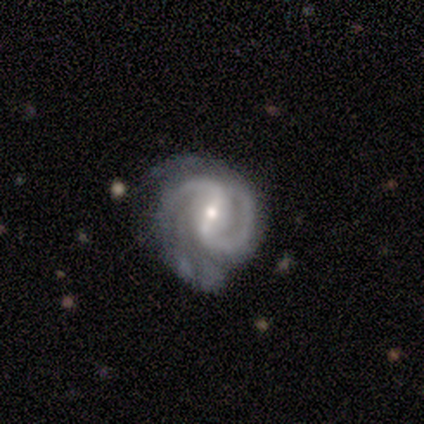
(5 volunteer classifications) This is clearly a featured or disk galaxy (80%). It is clearly not viewed edge-on (100%). Bar: possibly strong (50%, tied with weak). Spiral arm pattern: clearly yes (100%). Spiral arm count: clearly 2 (100%). Spiral winding: possibly medium (50%). Central bulge: likely small (75%). Merging: marginally minor disturbance (40%).